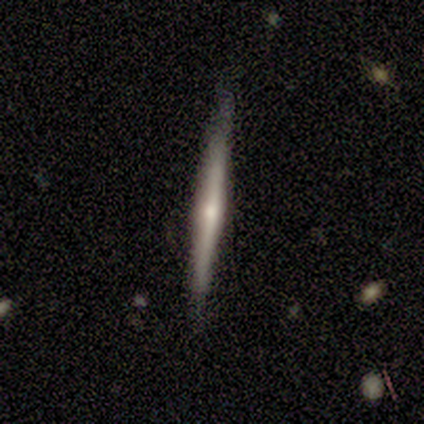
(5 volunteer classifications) Q: Smooth or featured?
A: featured or disk (60%); runner-up: smooth (40%)
Q: Edge-on disk?
A: yes (100%)
Q: Edge-on bulge?
A: rounded (67%); runner-up: none (33%)
Q: Merging?
A: none (80%); runner-up: minor disturbance (20%)